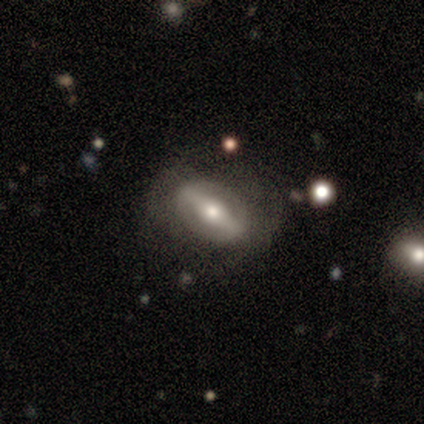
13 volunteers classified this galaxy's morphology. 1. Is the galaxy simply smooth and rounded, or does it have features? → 92% featured or disk, 8% smooth, 0% star or artifact.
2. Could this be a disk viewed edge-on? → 75% no, 25% yes.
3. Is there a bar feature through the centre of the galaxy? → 89% strong, 11% no, 0% weak.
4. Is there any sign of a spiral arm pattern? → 67% no, 33% yes.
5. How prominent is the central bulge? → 78% moderate, 22% large, 0% dominant, 0% small, 0% none.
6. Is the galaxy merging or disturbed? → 62% none, 23% minor disturbance, 15% major disturbance, 0% merger.